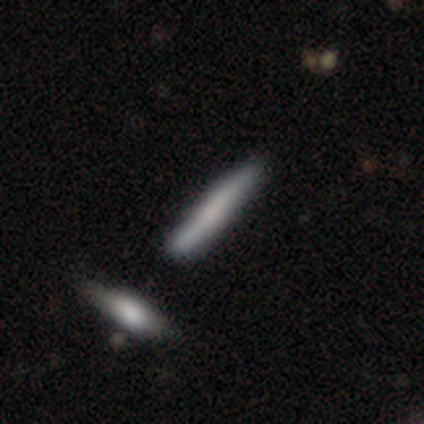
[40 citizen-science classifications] Overall: smooth (70%). How rounded: cigar-shaped (89%). Merging: none (72%).